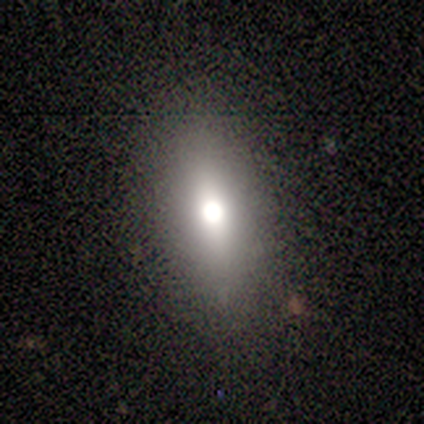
Q: Smooth or featured?
A: smooth (80%); runner-up: star or artifact (20%)
Q: How rounded?
A: in between (75%); runner-up: cigar-shaped (25%)
Q: Merging?
A: none (50%); runner-up: major disturbance (25%)